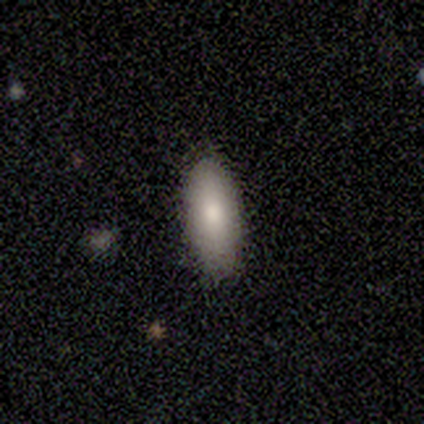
smooth 80%, star or artifact 20%, featured or disk 0%. Down the decision tree: how rounded — in between (75%); merging — none (50%, tied with minor disturbance).